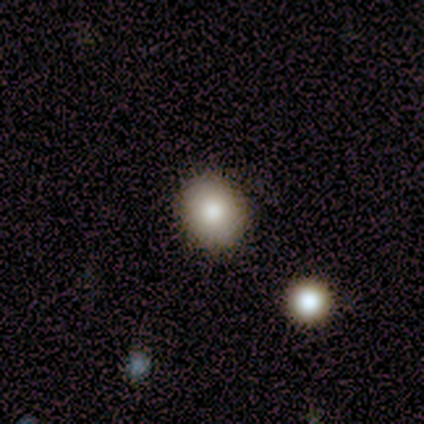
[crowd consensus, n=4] smooth 100%, featured or disk 0%, star or artifact 0%. Down the decision tree: how rounded — round (100%); merging — none (100%).